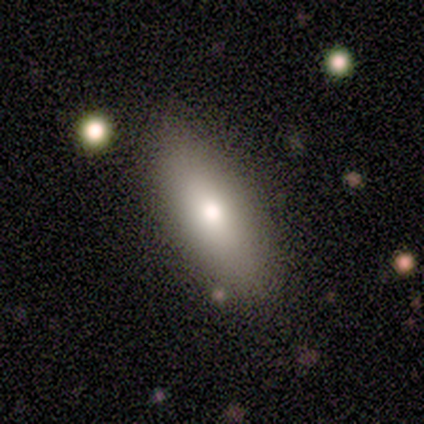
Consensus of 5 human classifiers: This appears to be a smooth galaxy with no disk features (80%) that is in between round and cigar-shaped (100%). Merging: none (60%).